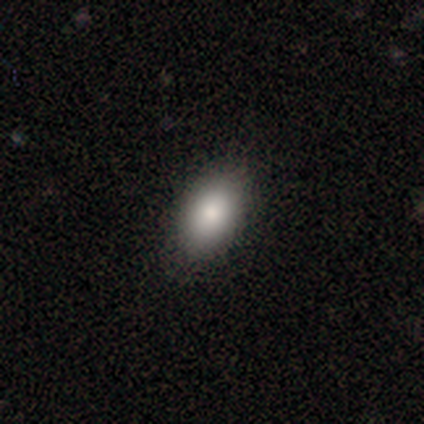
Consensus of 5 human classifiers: A smooth galaxy with no disk features (100%) that is in between round and cigar-shaped (80%).

Vote fractions:
- Smooth or featured? smooth: 100% / featured or disk: 0% / star or artifact: 0%
- How rounded? in between: 80% / cigar-shaped: 20% / round: 0%
- Merging? none: 80% / major disturbance: 20% / minor disturbance: 0% / merger: 0%